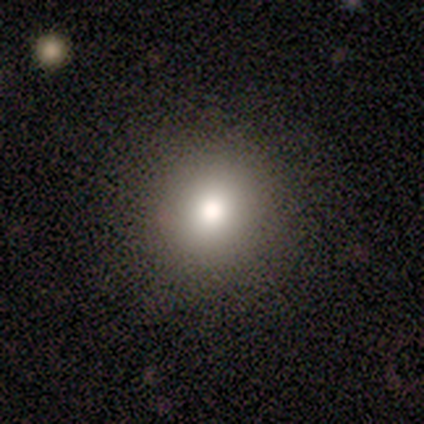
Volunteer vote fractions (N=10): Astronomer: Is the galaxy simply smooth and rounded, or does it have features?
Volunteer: smooth — 70%.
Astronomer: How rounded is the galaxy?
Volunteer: round — 86%.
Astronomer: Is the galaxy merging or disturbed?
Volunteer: none — 88%.